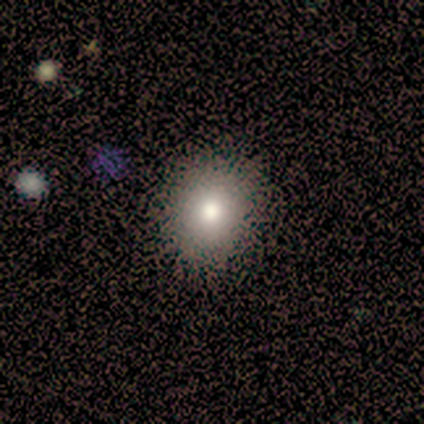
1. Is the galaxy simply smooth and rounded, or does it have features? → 100% smooth, 0% featured or disk, 0% star or artifact.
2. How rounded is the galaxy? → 91% round, 9% in between, 0% cigar-shaped.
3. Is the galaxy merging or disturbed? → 82% none, 9% minor disturbance, 9% major disturbance, 0% merger.